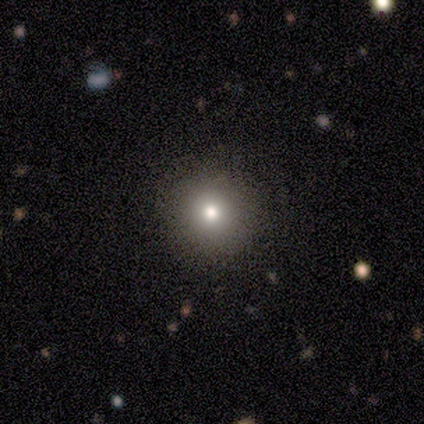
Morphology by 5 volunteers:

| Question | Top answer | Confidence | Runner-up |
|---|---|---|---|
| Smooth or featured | smooth | 80% | star or artifact (20%) |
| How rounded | round | 100% | — |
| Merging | none | 100% | — |